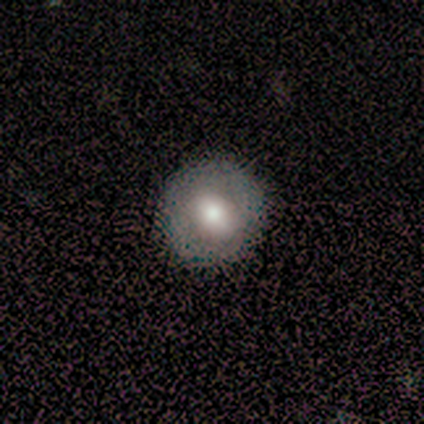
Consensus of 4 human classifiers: Overall: smooth (75%). How rounded: round (100%). Merging: none (100%).